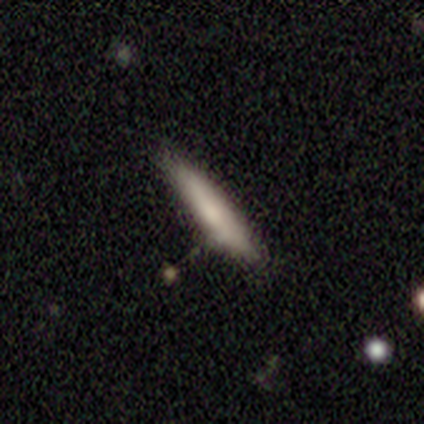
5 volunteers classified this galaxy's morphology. A smooth galaxy with no disk features (80%) that is cigar-shaped (100%). Merging: none (80%).